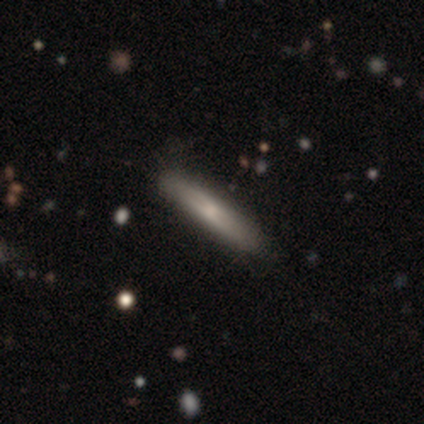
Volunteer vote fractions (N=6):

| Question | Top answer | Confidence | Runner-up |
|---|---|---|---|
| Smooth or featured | featured or disk | 67% | smooth (33%) |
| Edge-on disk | yes | 100% | — |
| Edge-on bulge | none | 75% | rounded (25%) |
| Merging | none | 67% | minor disturbance (17%) |